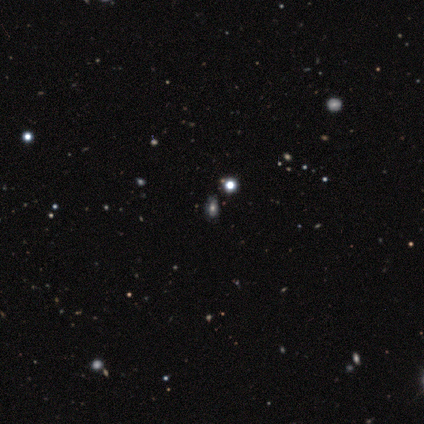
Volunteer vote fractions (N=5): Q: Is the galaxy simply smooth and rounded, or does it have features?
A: smooth — 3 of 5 (60%).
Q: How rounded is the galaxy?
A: in between — 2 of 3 (67%).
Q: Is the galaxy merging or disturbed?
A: none — 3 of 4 (75%).